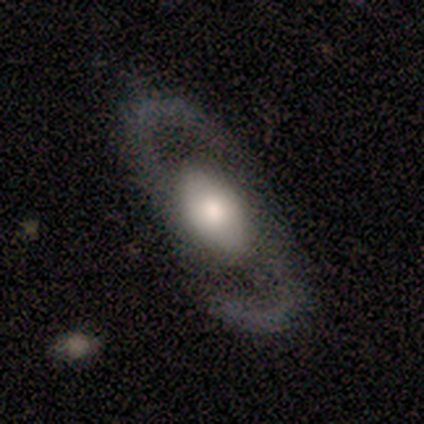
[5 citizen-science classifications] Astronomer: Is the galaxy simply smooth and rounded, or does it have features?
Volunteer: featured or disk — 80%.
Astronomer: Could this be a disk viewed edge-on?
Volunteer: no — 100%.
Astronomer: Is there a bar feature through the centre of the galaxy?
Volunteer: no — 75%.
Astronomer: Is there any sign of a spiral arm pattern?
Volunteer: yes — 100%.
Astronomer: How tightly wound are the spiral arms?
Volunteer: loose — 75%.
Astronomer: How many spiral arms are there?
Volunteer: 2 — 100%.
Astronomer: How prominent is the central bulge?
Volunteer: large — 50%.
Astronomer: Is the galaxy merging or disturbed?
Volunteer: none — 100%.